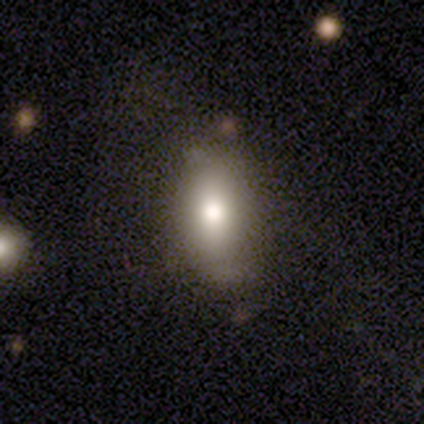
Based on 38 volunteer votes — A smooth galaxy with no disk features (82%) that is in between round and cigar-shaped (77%).

Vote fractions:
- Smooth or featured? smooth: 82% / featured or disk: 13% / star or artifact: 5%
- How rounded? in between: 77% / cigar-shaped: 13% / round: 10%
- Merging? none: 78% / minor disturbance: 17% / major disturbance: 6% / merger: 0%